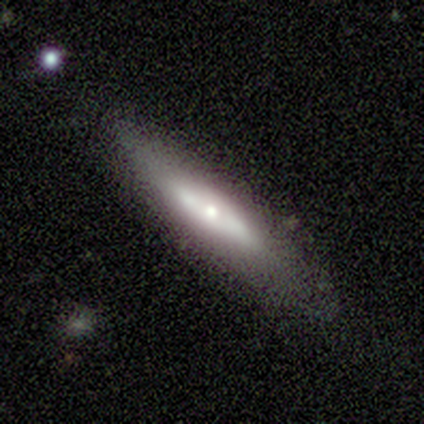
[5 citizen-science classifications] Smooth or featured? 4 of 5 (80%) said smooth. How rounded? 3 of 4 (75%) said cigar-shaped. Merging? 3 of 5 (60%) said none.